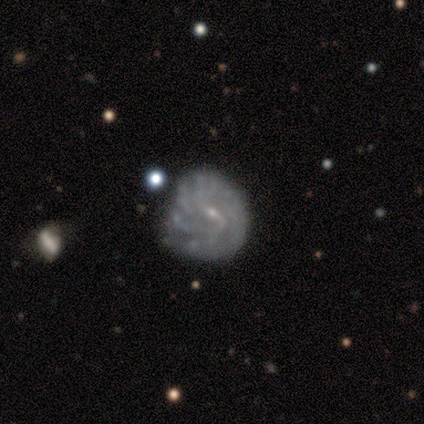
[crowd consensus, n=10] smooth_or_featured: featured or disk (p=1.00)
disk_edge_on: no (p=0.90) [alt: yes p=0.10]
bar: strong (p=0.44) [alt: weak p=0.33]
has_spiral_arms: yes (p=0.78) [alt: no p=0.22]
spiral_winding: tight (p=0.43) [tied with: loose p=0.43]
spiral_arm_count: 2 (p=0.57) [alt: 3 p=0.29]
bulge_size: small (p=1.00)
merging: none (p=0.60) [alt: minor disturbance p=0.30]